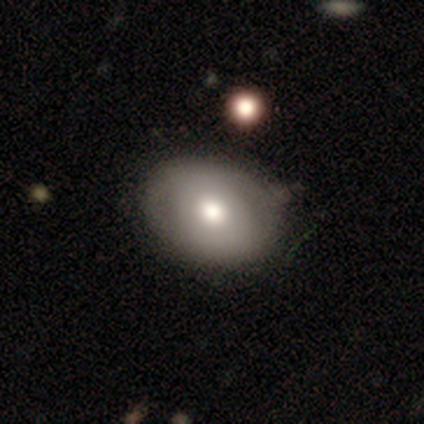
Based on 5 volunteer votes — Smooth or featured: featured or disk — 60% (smooth — 40%)
Edge-on disk: no — 100%
Bar: no — 67% (weak — 33%)
Spiral arms: no — 67% (yes — 33%)
Bulge size: moderate — 67% (large — 33%)
Merging: minor disturbance — 60% (none — 20%)